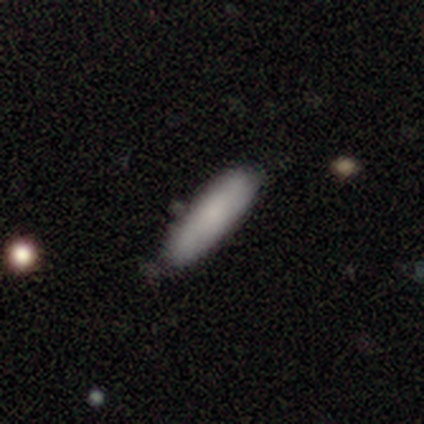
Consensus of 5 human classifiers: A smooth galaxy with no disk features (80%) that is in between round and cigar-shaped (50%, tied with cigar-shaped). Merging: none (80%).